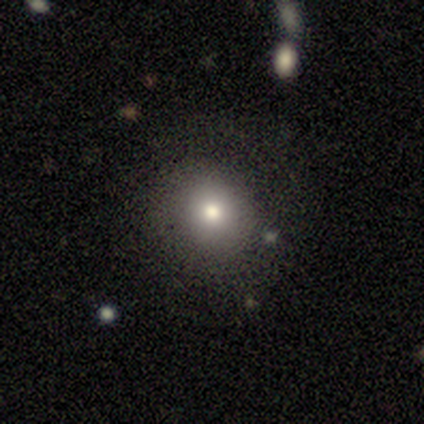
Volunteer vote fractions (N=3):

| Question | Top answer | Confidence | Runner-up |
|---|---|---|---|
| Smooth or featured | smooth | 100% | — |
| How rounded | round | 67% | in between (33%) |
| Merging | none | 67% | minor disturbance (33%) |